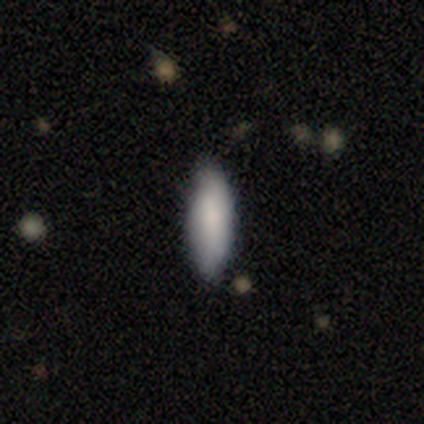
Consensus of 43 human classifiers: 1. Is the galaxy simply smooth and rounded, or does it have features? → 86% smooth, 12% featured or disk, 2% star or artifact.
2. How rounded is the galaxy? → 70% in between, 30% cigar-shaped, 0% round.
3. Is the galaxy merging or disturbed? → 55% none, 7% minor disturbance, 0% major disturbance, 0% merger.